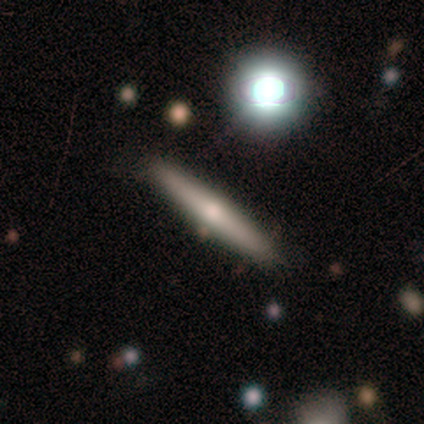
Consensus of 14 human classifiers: A featured or disk galaxy (57%) viewed edge-on (100%) with a rounded central bulge (100%).

Vote fractions:
- Smooth or featured? featured or disk: 57% / smooth: 36% / star or artifact: 7%
- Edge-on disk? yes: 100% / no: 0%
- Edge-on bulge? rounded: 100% / boxy: 0% / none: 0%
- Merging? none: 92% / minor disturbance: 8% / major disturbance: 0% / merger: 0%